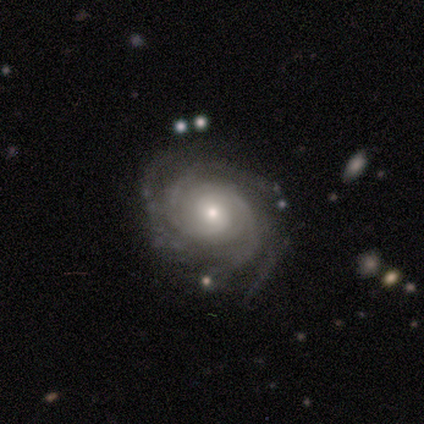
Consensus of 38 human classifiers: featured or disk 95%, star or artifact 5%, smooth 0%. Down the decision tree: edge-on disk — no (97%); bar — no (60%); spiral arms — yes (97%); spiral arm count — 4 (35%); spiral winding — tight (88%); bulge size — moderate (49%, tied with small); merging — none (47%).